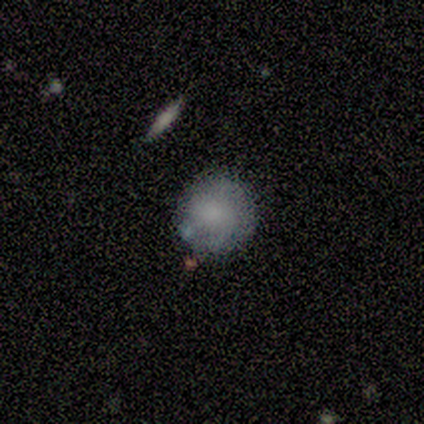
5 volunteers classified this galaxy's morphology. smooth-or-featured: smooth: 100% | featured or disk: 0% | star or artifact: 0%
  how-rounded: round: 100% | in between: 0% | cigar-shaped: 0%
  merging: none: 80% | major disturbance: 20% | minor disturbance: 0% | merger: 0%